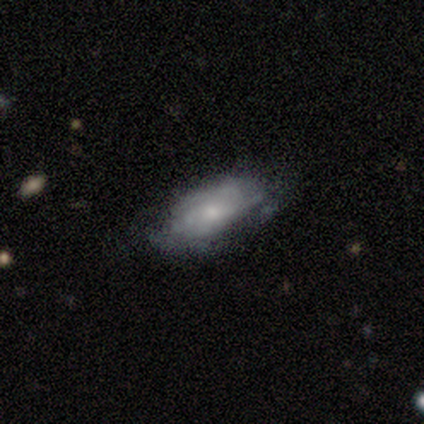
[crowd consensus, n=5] Smooth or featured? 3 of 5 (60%) said featured or disk. Edge-on disk? 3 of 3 (100%) said no. Bar? 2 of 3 (67%) said no. Spiral arms? 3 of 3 (100%) said yes. Spiral winding? 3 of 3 (100%) said tight. Spiral arm count? 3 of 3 (100%) said can't tell. Bulge size? 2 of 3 (67%) said small. Merging? 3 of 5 (60%) said none.